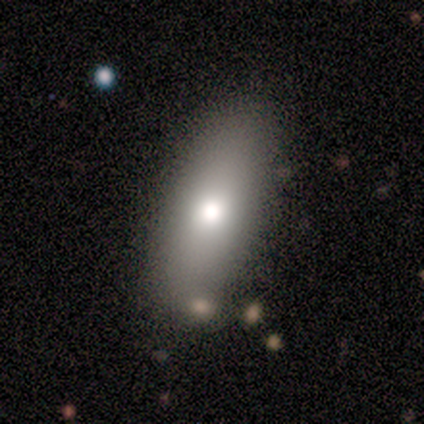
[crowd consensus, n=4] smooth-or-featured: smooth: 50% (tied) | featured or disk: 50% (tied) | star or artifact: 0%
  how-rounded: in between: 100% | round: 0% | cigar-shaped: 0%
  merging: none: 100% | minor disturbance: 0% | major disturbance: 0% | merger: 0%